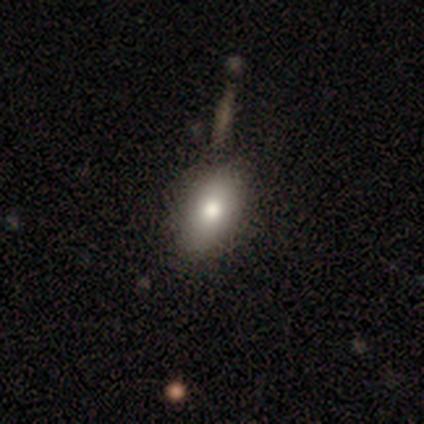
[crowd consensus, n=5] Smooth or featured? 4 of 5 (80%) said smooth. How rounded? 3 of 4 (75%) said in between. Merging? 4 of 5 (80%) said none.